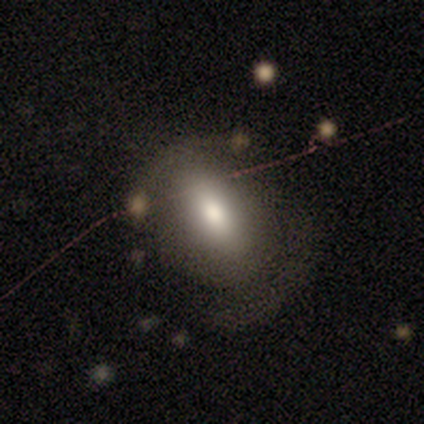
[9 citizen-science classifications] Smooth or featured?
  - smooth: 78% *
  - featured or disk: 11%
  - star or artifact: 11%
How rounded?
  - in between: 57% *
  - round: 43%
  - cigar-shaped: 0%
Merging?
  - none: 62% *
  - minor disturbance: 25%
  - merger: 12%
  - major disturbance: 0%